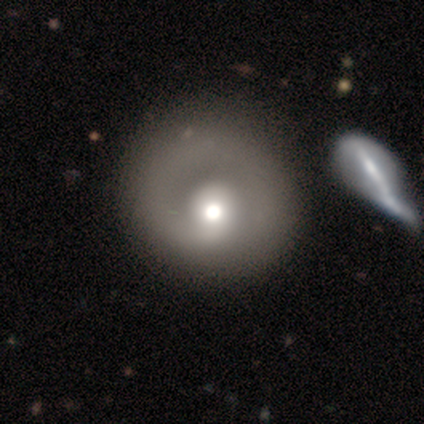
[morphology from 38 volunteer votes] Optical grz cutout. It shows a featured or disk galaxy (68%) with no bar (85%), 1 (88%) tight (59%) spiral arms (65%) and a moderate central bulge (65%). Merging: none (62%).